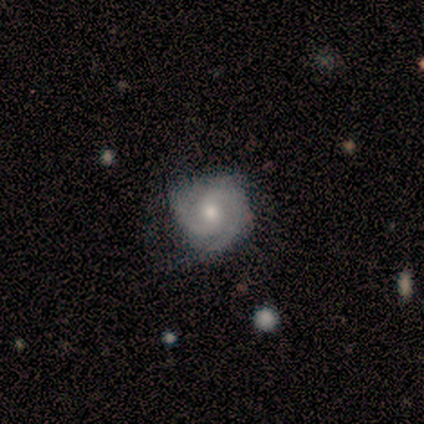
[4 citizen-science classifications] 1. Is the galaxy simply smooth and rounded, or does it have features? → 75% featured or disk, 25% star or artifact, 0% smooth.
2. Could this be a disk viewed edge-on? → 100% no, 0% yes.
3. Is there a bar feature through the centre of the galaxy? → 67% weak, 33% no, 0% strong.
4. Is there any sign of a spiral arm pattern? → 100% yes, 0% no.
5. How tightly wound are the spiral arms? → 33% tight (tied), 33% medium (tied), 33% loose (tied).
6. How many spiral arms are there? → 100% 2, 0% 1, 0% 3, 0% 4, 0% more than 4, 0% can't tell.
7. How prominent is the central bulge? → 67% small, 33% moderate, 0% dominant, 0% large, 0% none.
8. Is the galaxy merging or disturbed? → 100% none, 0% minor disturbance, 0% major disturbance, 0% merger.